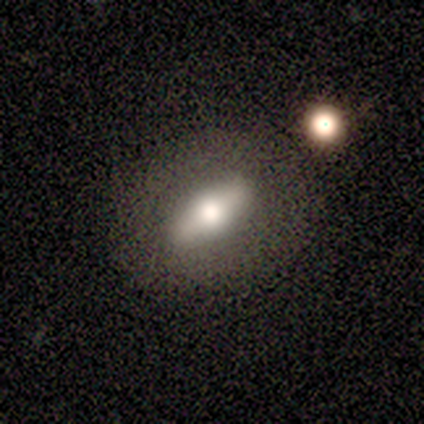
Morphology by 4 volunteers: A smooth galaxy with no disk features (50%, tied with featured or disk) that is in between round and cigar-shaped (100%).

Vote fractions:
- Smooth or featured? smooth: 50% (tied) / featured or disk: 50% (tied) / star or artifact: 0%
- How rounded? in between: 100% / round: 0% / cigar-shaped: 0%
- Merging? none: 75% / minor disturbance: 25% / major disturbance: 0% / merger: 0%